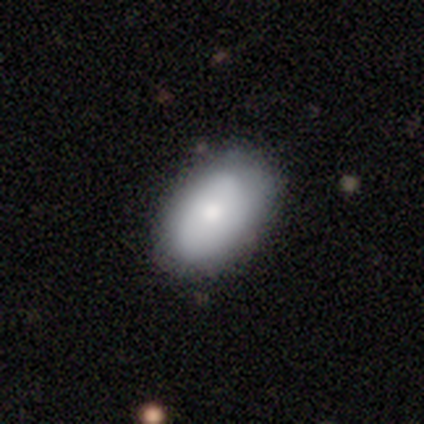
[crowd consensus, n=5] Smooth or featured? smooth (80%)
How rounded? in between (100%)
Merging? none (100%)